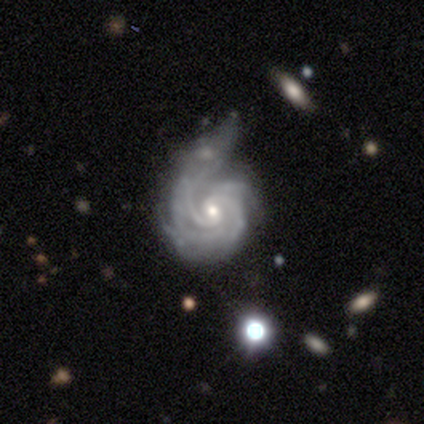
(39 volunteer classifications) Smooth or featured? featured or disk (95%)
Edge-on disk? no (95%)
Bar? no (63%)
Spiral arms? yes (100%)
Spiral winding? tight (60%)
Spiral arm count? 4 (34%)
Bulge size? small (63%)
Merging? none (35%, tied with minor disturbance)